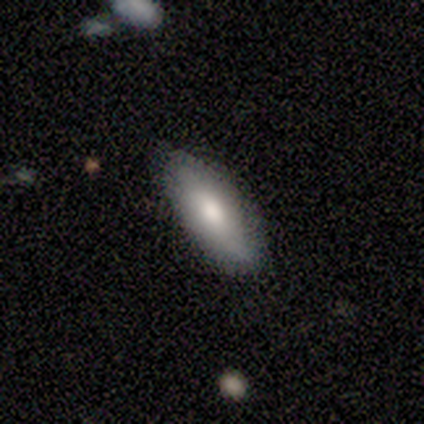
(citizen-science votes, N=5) smooth_or_featured: smooth (p=0.80) [alt: star or artifact p=0.20]
how_rounded: in between (p=1.00)
merging: none (p=1.00)